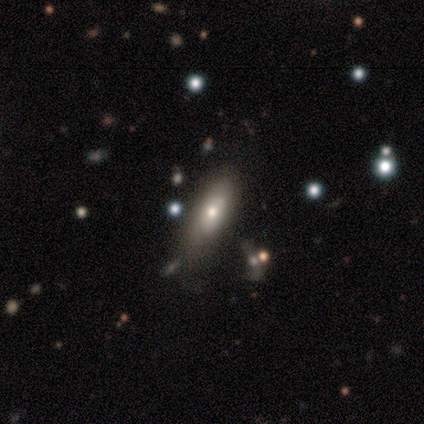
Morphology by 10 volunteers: This appears to be a smooth galaxy with no disk features (70%) that is in between round and cigar-shaped (57%). Merging: none (50%).